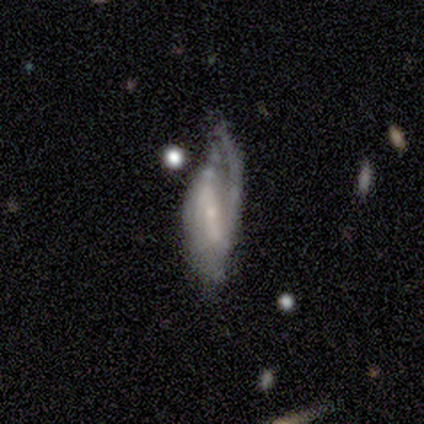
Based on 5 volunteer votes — featured or disk 60%, smooth 40%, star or artifact 0%. Down the decision tree: edge-on disk — no (100%); bar — strong (67%); spiral arms — yes (100%); spiral arm count — can't tell (67%); spiral winding — loose (67%); bulge size — small (67%); merging — none (40%, tied with major disturbance).